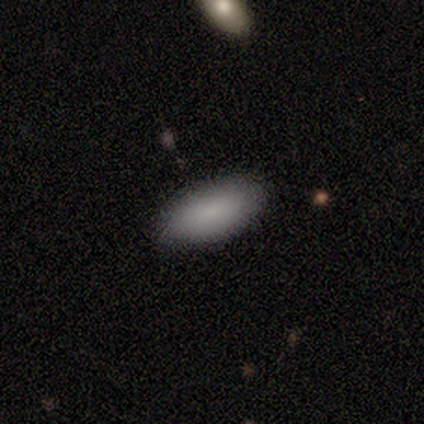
smooth_or_featured: smooth (p=0.94) [alt: featured or disk p=0.06]
how_rounded: in between (p=0.89) [alt: cigar-shaped p=0.11]
merging: none (p=0.88) [alt: minor disturbance p=0.10]